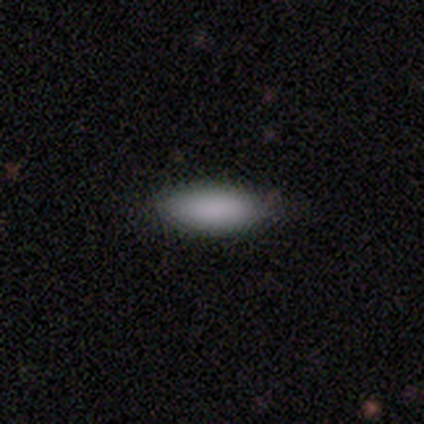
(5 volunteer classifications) Smooth or featured: smooth — 80% (star or artifact — 20%)
How rounded: in between — 75% (cigar-shaped — 25%)
Merging: none — 75% (minor disturbance — 25%)